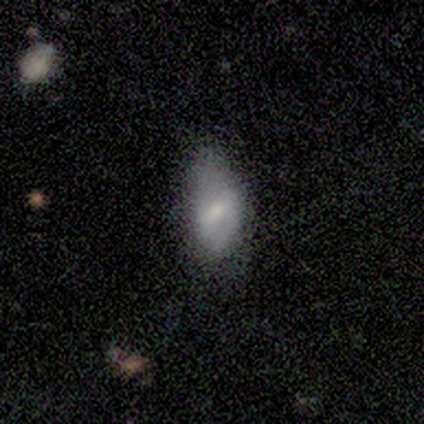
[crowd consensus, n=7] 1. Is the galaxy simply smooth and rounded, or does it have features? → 57% smooth, 43% featured or disk, 0% star or artifact.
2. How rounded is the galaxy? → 100% in between, 0% round, 0% cigar-shaped.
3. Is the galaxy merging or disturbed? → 86% minor disturbance, 14% none, 0% major disturbance, 0% merger.